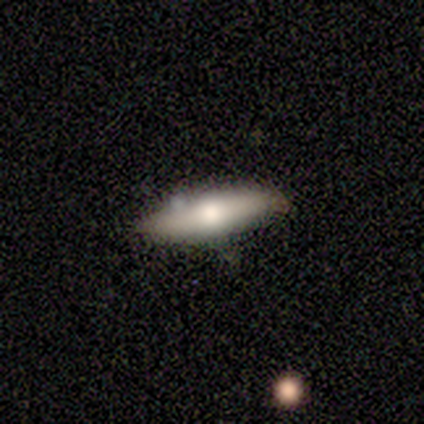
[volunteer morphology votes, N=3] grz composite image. It shows a smooth galaxy with no disk features (67%) that is cigar-shaped (100%). Merging: none (100%).